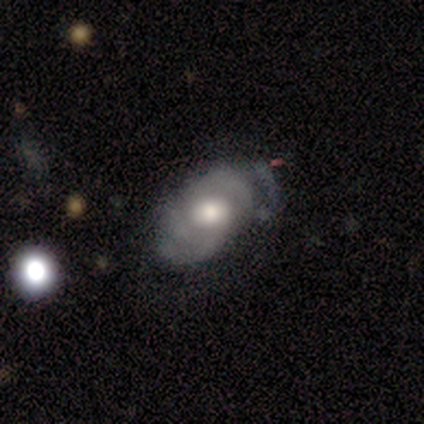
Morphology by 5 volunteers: smooth_or_featured: featured or disk (p=0.80) [alt: smooth p=0.20]
disk_edge_on: no (p=1.00)
bar: no (p=0.75) [alt: weak p=0.25]
has_spiral_arms: yes (p=1.00)
spiral_winding: medium (p=0.75) [alt: loose p=0.25]
spiral_arm_count: 2 (p=0.75) [alt: can't tell p=0.25]
bulge_size: moderate (p=1.00)
merging: none (p=0.80) [alt: minor disturbance p=0.20]